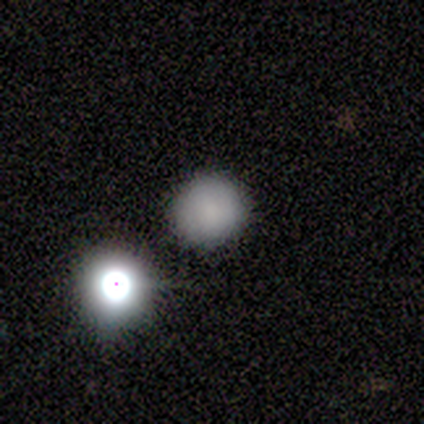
Smooth or featured? smooth (75%)
How rounded? round (100%)
Merging? none (75%)